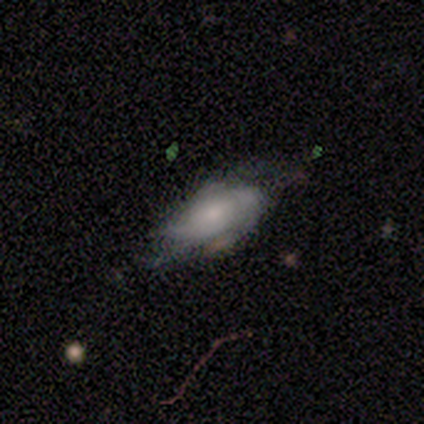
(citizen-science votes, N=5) Morphology: type=featured or disk (80%); edge-on=no (100%); bar=no (100%); spiral arms=yes (75%); winding=medium (67%); arm count=can't tell (67%); bulge=small (75%); merging=none (40%, tied with major disturbance).